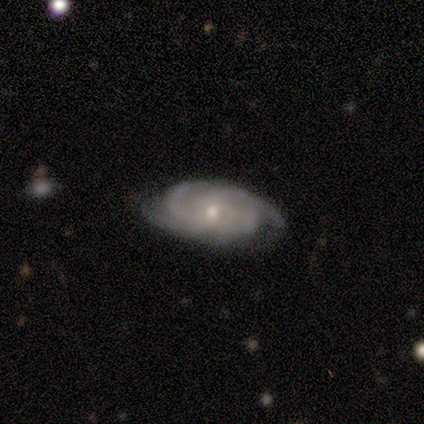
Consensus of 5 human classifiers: smooth_or_featured: featured or disk (p=0.80) [alt: smooth p=0.20]
disk_edge_on: no (p=1.00)
bar: no (p=0.75) [alt: weak p=0.25]
has_spiral_arms: yes (p=1.00)
spiral_winding: tight (p=0.50) [tied with: medium p=0.50]
spiral_arm_count: 4 (p=0.75) [alt: more than 4 p=0.25]
bulge_size: small (p=0.75) [alt: moderate p=0.25]
merging: none (p=1.00)